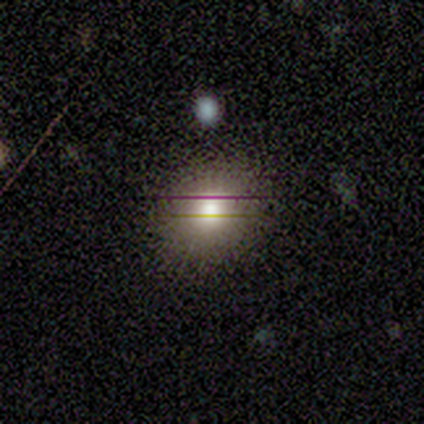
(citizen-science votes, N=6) Smooth or featured: smooth — 67% (featured or disk — 17%)
How rounded: round — 75% (in between — 25%)
Merging: none — 100%